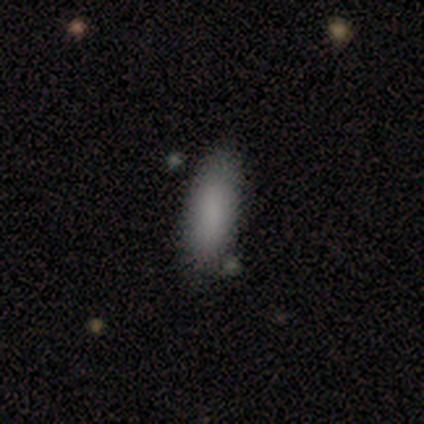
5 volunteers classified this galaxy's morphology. type=smooth (60%); roundness=cigar-shaped (67%); merging=none (75%).